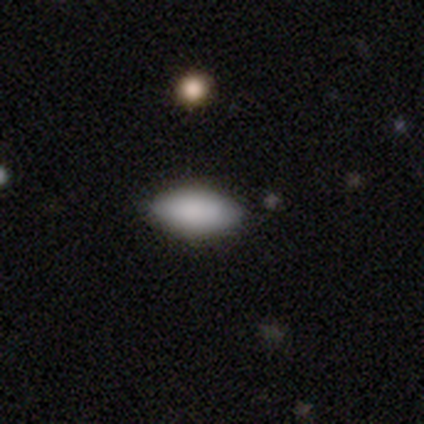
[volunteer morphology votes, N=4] Consensus on every question: smooth or featured — smooth (100%); how rounded — in between (100%); merging — none (100%).